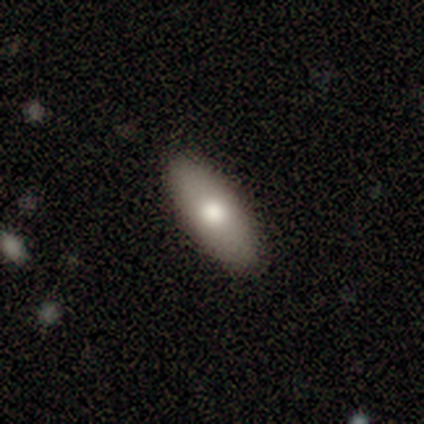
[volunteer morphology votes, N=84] smooth 80%, featured or disk 19%, star or artifact 1%. Down the decision tree: how rounded — in between (67%); merging — none (87%).